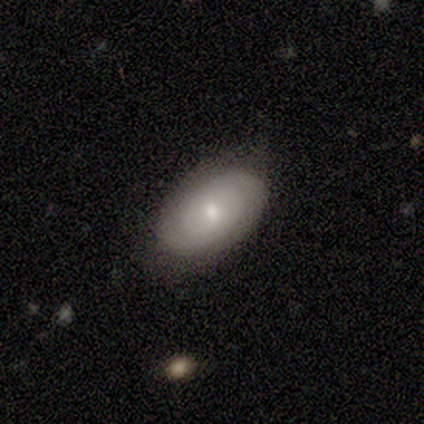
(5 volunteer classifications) Overall: featured or disk (60%; smooth 40%). Edge-on disk: no (100%). Bar: no (67%; weak 33%). Spiral arms: no (67%; yes 33%). Bulge size: moderate (67%; dominant 33%). Merging: minor disturbance (100%).